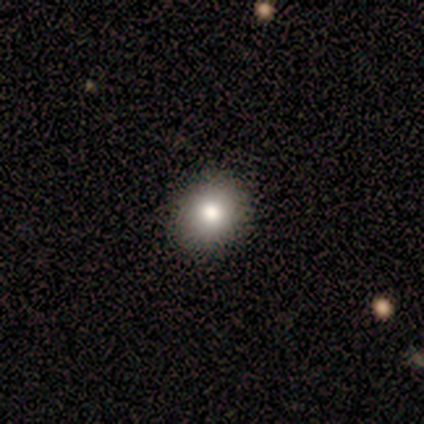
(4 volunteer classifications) Q: Smooth or featured?
A: smooth (75%); runner-up: featured or disk (25%)
Q: How rounded?
A: round (67%); runner-up: in between (33%)
Q: Merging?
A: none (75%); runner-up: minor disturbance (25%)